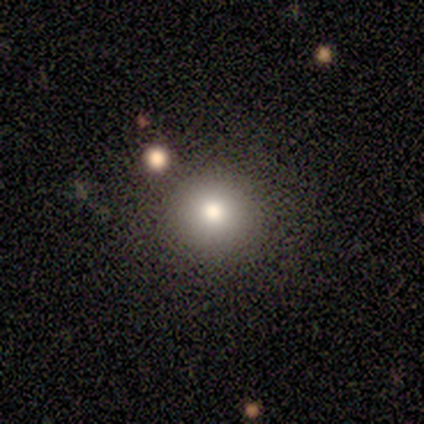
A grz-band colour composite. It shows a smooth galaxy with no disk features (80%) that is round (100%). Merging: none (100%).